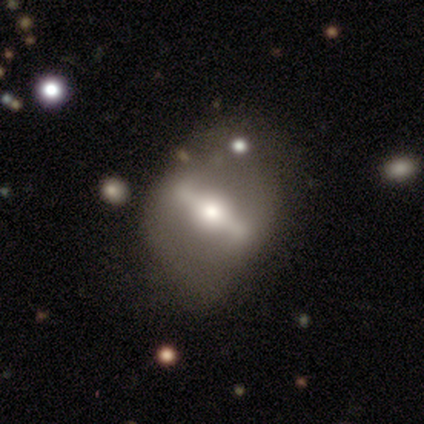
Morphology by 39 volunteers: Volunteers were most divided on "merging": none: 50%, major disturbance: 28%, minor disturbance: 22%, merger: 0%. More confident: bar — strong (90%); spiral arms — no (80%); smooth or featured — featured or disk (79%); edge-on disk — no (65%); bulge size — moderate (60%).